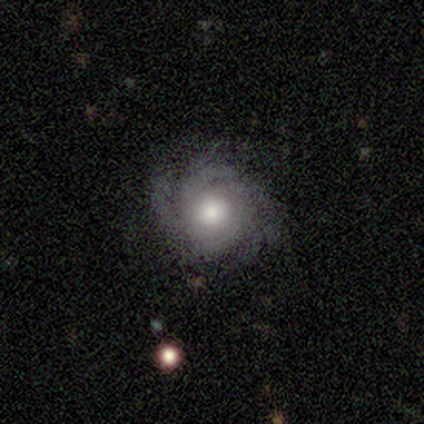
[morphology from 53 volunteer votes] Smooth or featured? featured or disk (94%)
Edge-on disk? no (100%)
Bar? no (84%)
Spiral arms? yes (98%)
Spiral winding? tight (55%)
Spiral arm count? 4 (35%)
Bulge size? large (46%, tied with moderate)
Merging? none (71%)